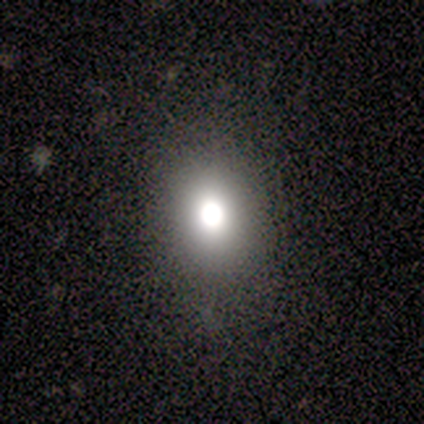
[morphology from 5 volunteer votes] A smooth galaxy with no disk features (60%) that is round (67%).

Vote fractions:
- Smooth or featured? smooth: 60% / star or artifact: 40% / featured or disk: 0%
- How rounded? round: 67% / in between: 33% / cigar-shaped: 0%
- Merging? none: 33% (tied) / minor disturbance: 33% (tied) / major disturbance: 33% (tied) / merger: 0%